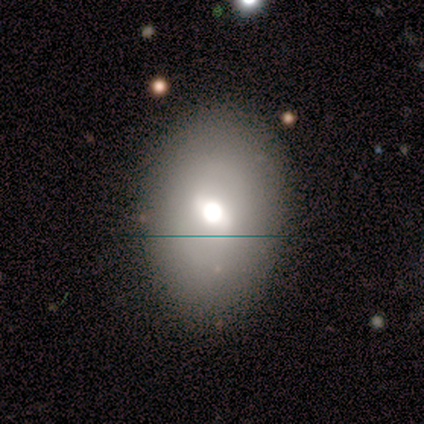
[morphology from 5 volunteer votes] Overall: smooth (60%; featured or disk 40%). How rounded: in between (100%). Merging: none (60%; minor disturbance 40%).